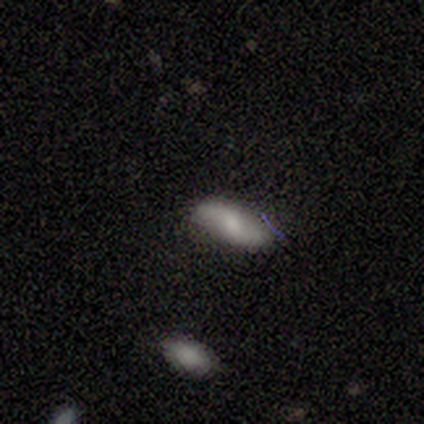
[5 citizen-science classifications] A smooth galaxy with no disk features (60%) that is in between round and cigar-shaped (100%).

Vote fractions:
- Smooth or featured? smooth: 60% / featured or disk: 20% / star or artifact: 20%
- How rounded? in between: 100% / round: 0% / cigar-shaped: 0%
- Merging? none: 75% / minor disturbance: 25% / major disturbance: 0% / merger: 0%